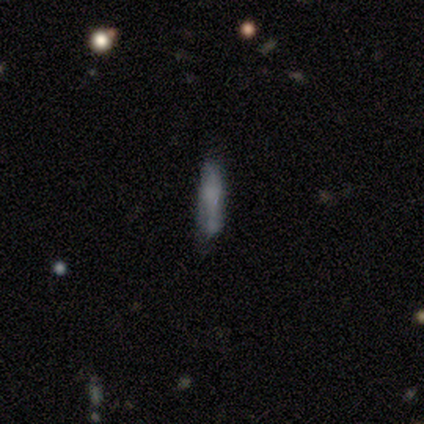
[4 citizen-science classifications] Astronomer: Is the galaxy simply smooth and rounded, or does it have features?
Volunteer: smooth — 100%.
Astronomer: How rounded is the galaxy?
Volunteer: cigar-shaped — 75%.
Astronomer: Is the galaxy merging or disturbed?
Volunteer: none — 50%.